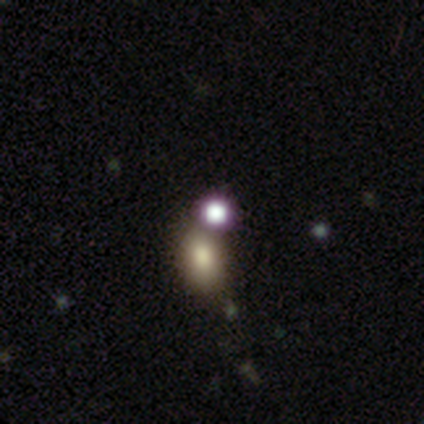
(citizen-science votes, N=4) Smooth or featured: smooth — 75% (star or artifact — 25%)
How rounded: round — 67% (in between — 33%)
Merging: none — 100%